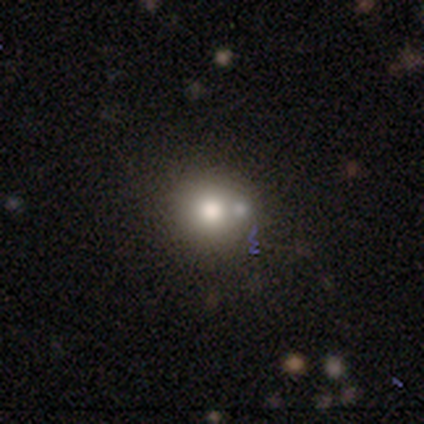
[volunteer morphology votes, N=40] smooth_or_featured: smooth (p=0.80) [alt: featured or disk p=0.15]
how_rounded: round (p=0.88) [alt: in between p=0.09]
merging: none (p=0.37) [tied with: merger p=0.37]